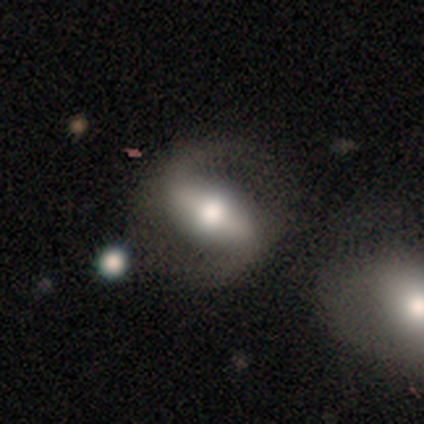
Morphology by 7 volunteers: smooth_or_featured: featured or disk (p=1.00)
disk_edge_on: no (p=0.86) [alt: yes p=0.14]
bar: strong (p=0.50) [alt: weak p=0.33]
has_spiral_arms: yes (p=0.50) [tied with: no p=0.50]
spiral_winding: medium (p=0.67) [alt: loose p=0.33]
spiral_arm_count: 2 (p=1.00)
bulge_size: moderate (p=0.67) [alt: large p=0.17]
merging: none (p=0.86) [alt: minor disturbance p=0.14]